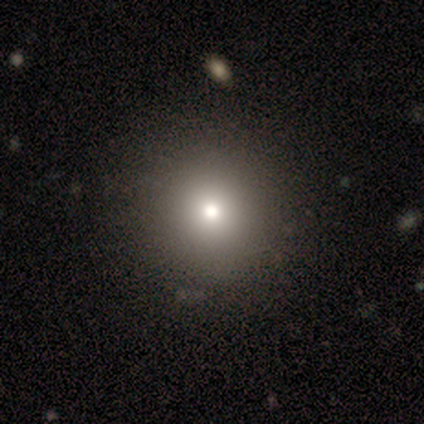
This is possibly a smooth galaxy (50%, tied with star or artifact). How rounded: clearly round (100%). Merging: clearly none (100%).